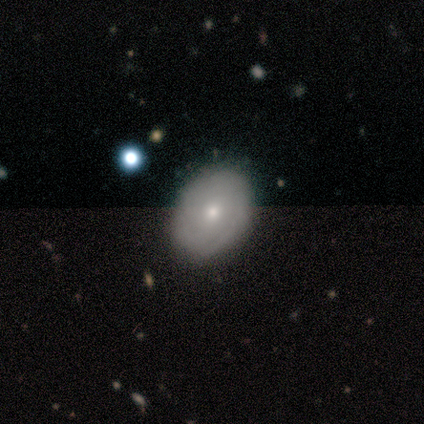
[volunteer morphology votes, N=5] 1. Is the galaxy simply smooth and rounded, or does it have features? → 40% smooth (tied), 40% featured or disk (tied), 20% star or artifact.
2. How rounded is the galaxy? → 50% round (tied), 50% in between (tied), 0% cigar-shaped.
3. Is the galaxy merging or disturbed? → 75% none, 25% minor disturbance, 0% major disturbance, 0% merger.